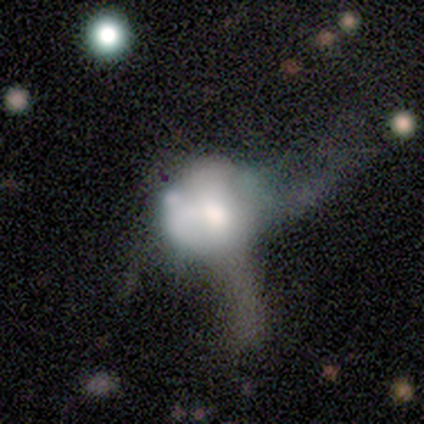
smooth_or_featured: smooth (p=0.43) [alt: featured or disk p=0.29]
how_rounded: round (p=0.67) [alt: in between p=0.33]
merging: major disturbance (p=0.80) [alt: merger p=0.20]